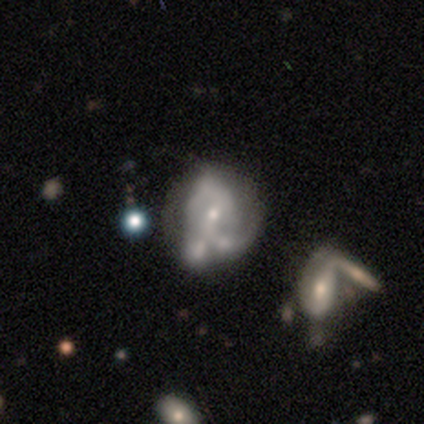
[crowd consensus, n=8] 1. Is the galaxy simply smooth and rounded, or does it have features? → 75% featured or disk, 25% smooth, 0% star or artifact.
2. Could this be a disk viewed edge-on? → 100% no, 0% yes.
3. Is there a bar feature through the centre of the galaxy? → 83% no, 17% weak, 0% strong.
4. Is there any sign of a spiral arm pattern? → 67% yes, 33% no.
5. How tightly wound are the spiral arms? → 75% medium, 25% loose, 0% tight.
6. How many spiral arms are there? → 50% 2 (tied), 50% can't tell (tied), 0% 1, 0% 3, 0% 4, 0% more than 4.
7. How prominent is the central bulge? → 50% moderate (tied), 50% small (tied), 0% dominant, 0% large, 0% none.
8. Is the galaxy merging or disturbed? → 38% merger, 25% none, 25% minor disturbance, 12% major disturbance.